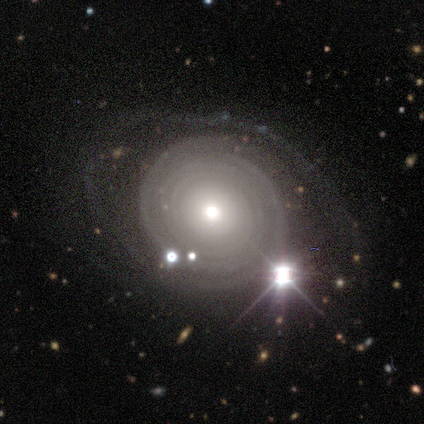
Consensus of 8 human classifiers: This appears to be a featured or disk galaxy (100%) with no bar (100%), tight (100%) spiral arms (88%) and a moderate central bulge (62%). Merging: none (50%).